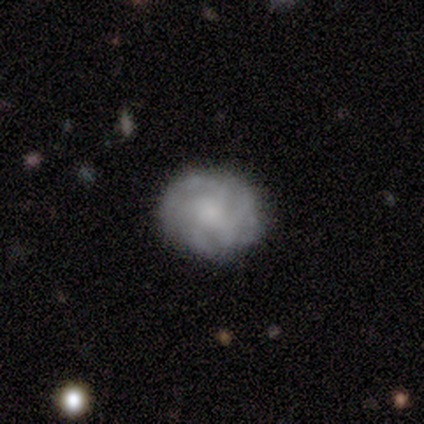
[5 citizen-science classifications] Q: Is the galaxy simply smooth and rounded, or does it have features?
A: smooth — 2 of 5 (40%, tied with featured or disk).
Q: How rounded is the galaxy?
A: round — 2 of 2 (100%).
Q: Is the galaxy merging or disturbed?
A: none — 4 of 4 (100%).